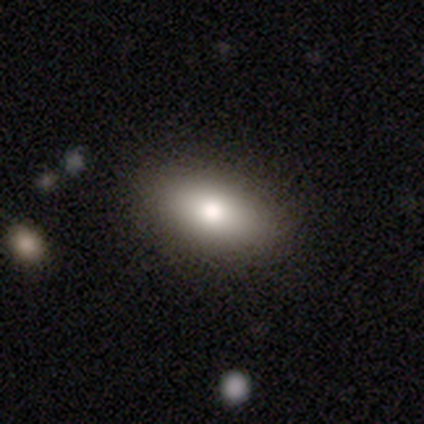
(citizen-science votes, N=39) Volunteers were most divided on "smooth or featured": smooth: 74%, featured or disk: 13%, star or artifact: 13%. More confident: merging — none (82%); how rounded — in between (79%).